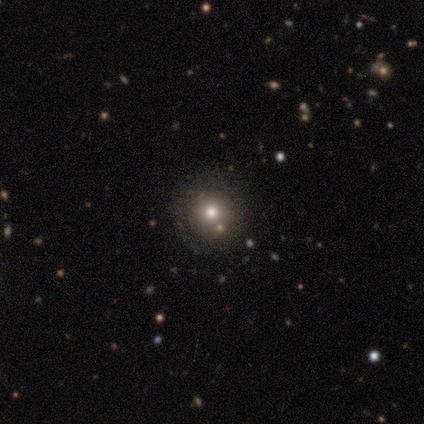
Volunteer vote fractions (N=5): Volunteers were most divided on "smooth or featured" (2-way tie): smooth: 40%, featured or disk: 40%, star or artifact: 20%. More confident: how rounded — round (100%); merging — none (50%).